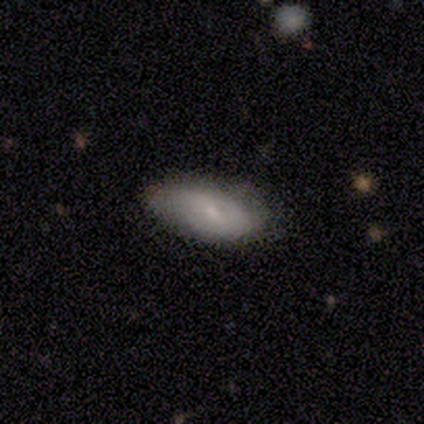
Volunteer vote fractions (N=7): smooth 57%, featured or disk 29%, star or artifact 14%. Down the decision tree: how rounded — in between (100%); merging — none (100%).